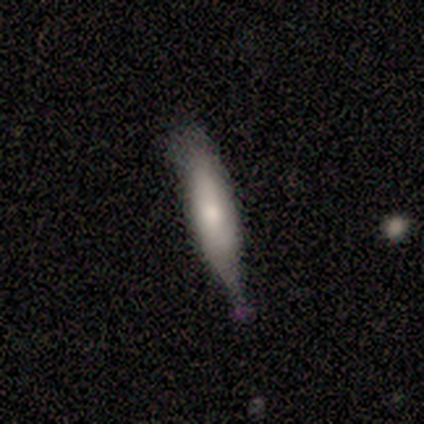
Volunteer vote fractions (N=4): This is possibly a smooth galaxy (50%, tied with featured or disk). How rounded: possibly in between (50%, tied with cigar-shaped). Merging: possibly none (50%, tied with minor disturbance).